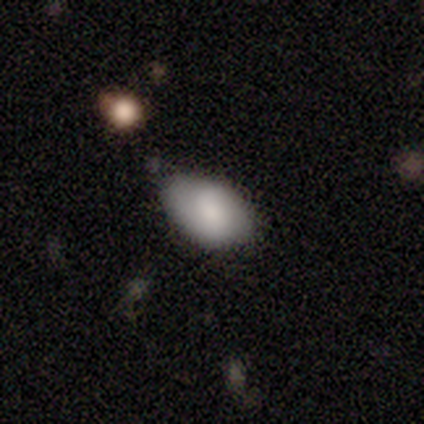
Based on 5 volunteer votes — Overall: smooth (80%). How rounded: in between (100%). Merging: none (80%).